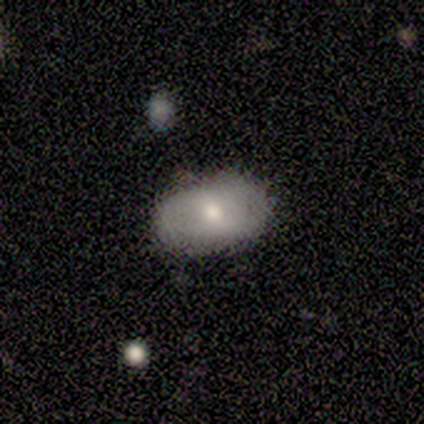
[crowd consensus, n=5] smooth_or_featured: featured or disk (p=0.60) [alt: smooth p=0.40]
disk_edge_on: no (p=1.00)
bar: weak (p=0.67) [alt: no p=0.33]
has_spiral_arms: no (p=1.00)
bulge_size: moderate (p=0.67) [alt: small p=0.33]
merging: none (p=0.60) [alt: minor disturbance p=0.20]